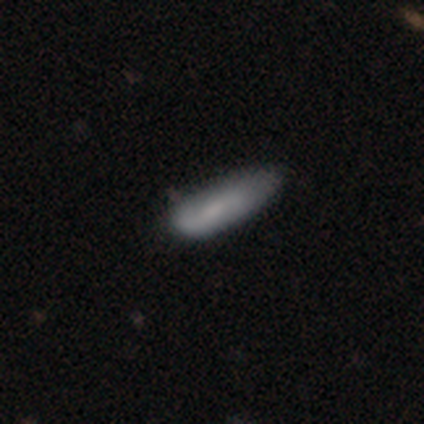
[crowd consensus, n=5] This is likely a smooth galaxy (60%). How rounded: likely cigar-shaped (67%). Merging: likely none (60%).